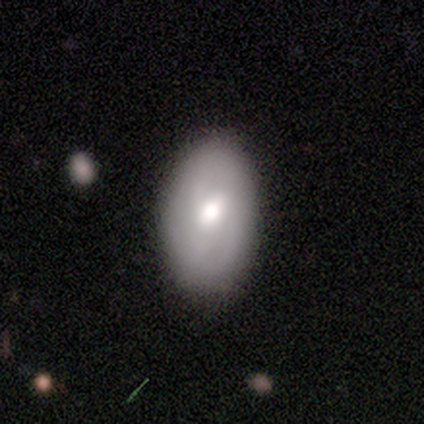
This appears to be a smooth galaxy with no disk features (50%) that is in between round and cigar-shaped (100%). Merging: none (80%).